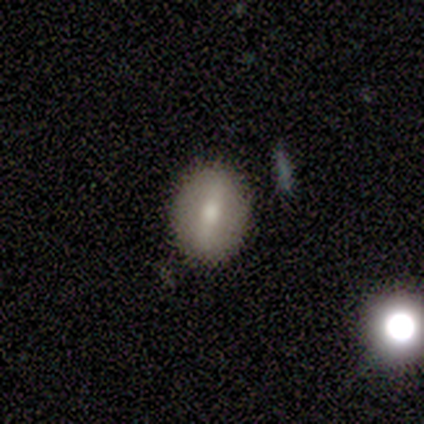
smooth 50% (tied), featured or disk 50% (tied), star or artifact 0%. Down the decision tree: how rounded — round (50%, tied with in between); merging — none (75%).